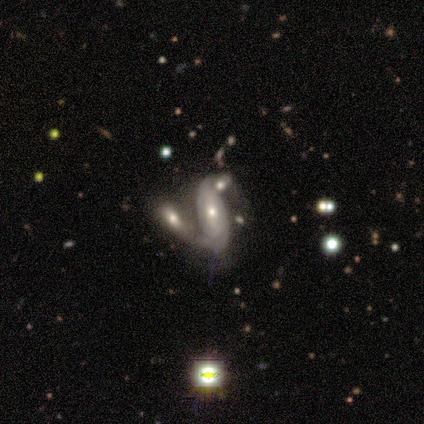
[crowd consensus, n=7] A featured or disk galaxy (71%) with no bar (100%), 2 (75%) loose (75%) spiral arms (80%) and a moderate central bulge (60%).

Vote fractions:
- Smooth or featured? featured or disk: 71% / smooth: 29% / star or artifact: 0%
- Edge-on disk? no: 100% / yes: 0%
- Bar? no: 100% / strong: 0% / weak: 0%
- Spiral arms? yes: 80% / no: 20%
- Spiral winding? loose: 75% / tight: 25% / medium: 0%
- Spiral arm count? 2: 75% / 1: 25% / 3: 0% / 4: 0% / more than 4: 0% / can't tell: 0%
- Bulge size? moderate: 60% / small: 40% / dominant: 0% / large: 0% / none: 0%
- Merging? merger: 100% / none: 0% / minor disturbance: 0% / major disturbance: 0%